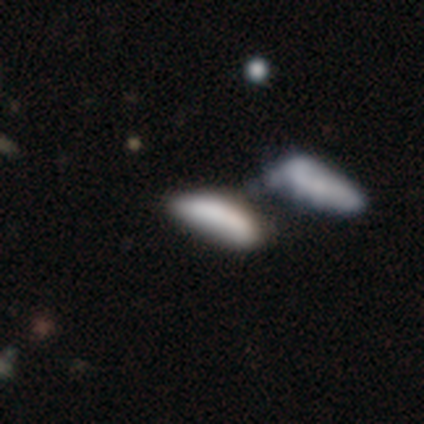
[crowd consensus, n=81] smooth 69%, featured or disk 27%, star or artifact 4%. Down the decision tree: how rounded — in between (55%); merging — merger (59%).